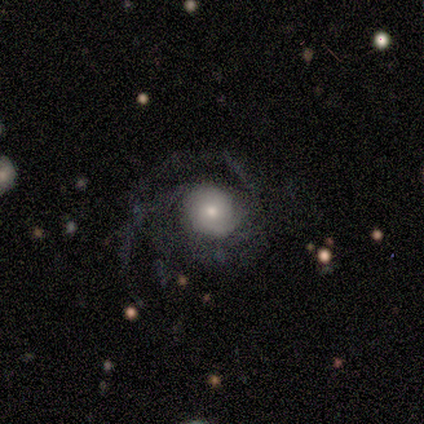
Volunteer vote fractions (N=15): Q: Smooth or featured?
A: featured or disk (60%); runner-up: smooth (33%)
Q: Edge-on disk?
A: no (100%)
Q: Bar?
A: no (67%); runner-up: weak (33%)
Q: Spiral arms?
A: yes (89%); runner-up: no (11%)
Q: Spiral winding?
A: medium (62%); runner-up: tight (38%)
Q: Spiral arm count?
A: can't tell (38%); runner-up: 2 (25%)
Q: Bulge size?
A: small (67%); runner-up: large (22%)
Q: Merging?
A: none (50%); runner-up: minor disturbance (29%)